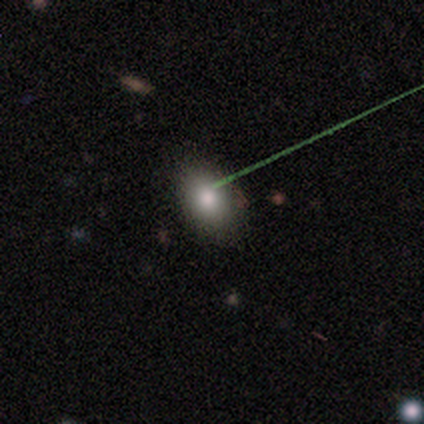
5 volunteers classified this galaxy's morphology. Smooth or featured?
  - smooth: 80% *
  - featured or disk: 20%
  - star or artifact: 0%
How rounded?
  - in between: 75% *
  - round: 25%
  - cigar-shaped: 0%
Merging?
  - none: 80% *
  - minor disturbance: 20%
  - major disturbance: 0%
  - merger: 0%